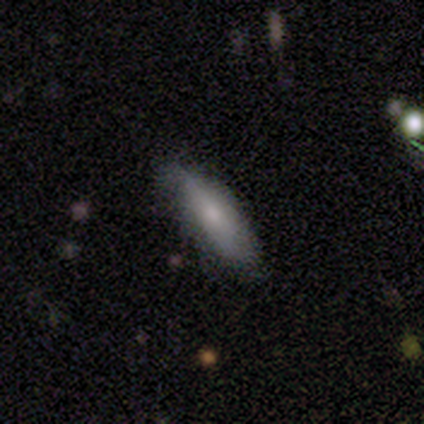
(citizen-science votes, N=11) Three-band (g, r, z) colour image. It shows a smooth galaxy with no disk features (82%) that is cigar-shaped (56%). Merging: none (82%).